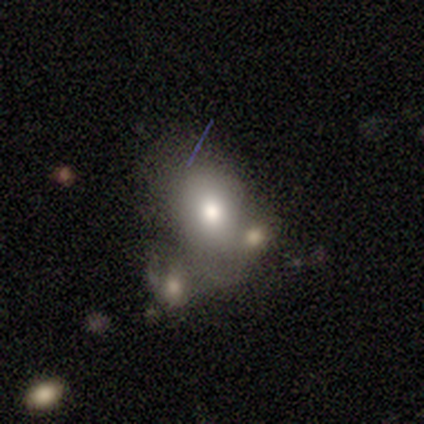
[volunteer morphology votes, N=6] smooth_or_featured: smooth (p=0.83) [alt: featured or disk p=0.17]
how_rounded: round (p=0.60) [alt: in between p=0.40]
merging: merger (p=0.50) [alt: none p=0.33]